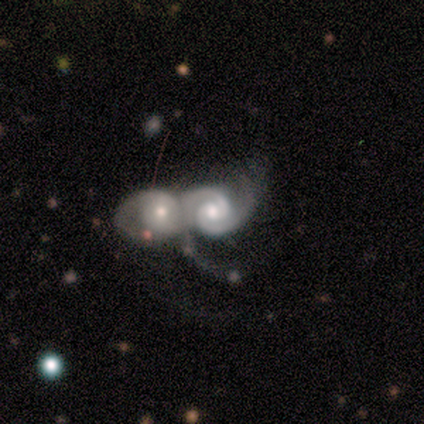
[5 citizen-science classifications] A featured or disk galaxy (100%) with a weak bar (60%), 2 (100%) tight (80%) spiral arms (100%) and a moderate central bulge (80%).

Vote fractions:
- Smooth or featured? featured or disk: 100% / smooth: 0% / star or artifact: 0%
- Edge-on disk? no: 100% / yes: 0%
- Bar? weak: 60% / no: 40% / strong: 0%
- Spiral arms? yes: 100% / no: 0%
- Spiral winding? tight: 80% / medium: 20% / loose: 0%
- Spiral arm count? 2: 100% / 1: 0% / 3: 0% / 4: 0% / more than 4: 0% / can't tell: 0%
- Bulge size? moderate: 80% / small: 20% / dominant: 0% / large: 0% / none: 0%
- Merging? merger: 80% / none: 20% / minor disturbance: 0% / major disturbance: 0%